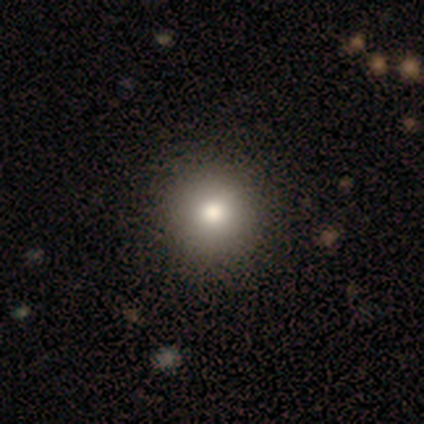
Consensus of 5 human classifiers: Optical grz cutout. It shows a smooth galaxy with no disk features (100%) that is round (100%). Merging: none (80%).